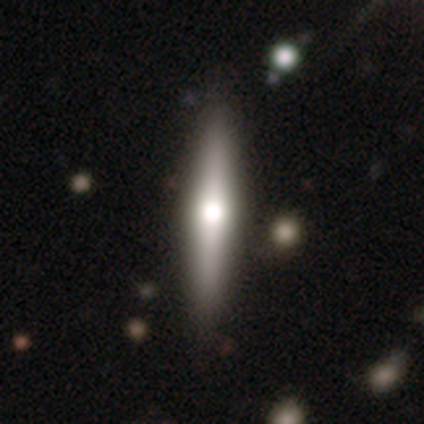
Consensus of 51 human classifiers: Overall: featured or disk (61%; smooth 35%). Edge-on disk: yes (100%). Edge-on bulge: rounded (97%). Merging: none (90%).